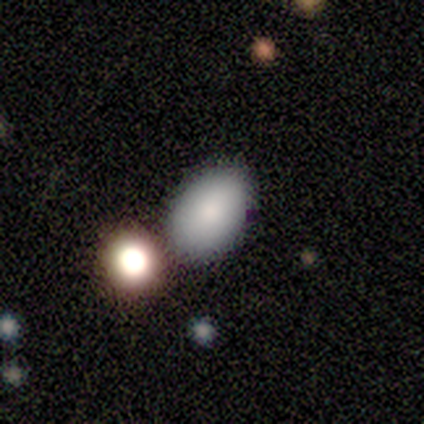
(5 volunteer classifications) This is clearly a smooth galaxy (80%). How rounded: clearly in between (100%). Merging: possibly none (50%, tied with merger).